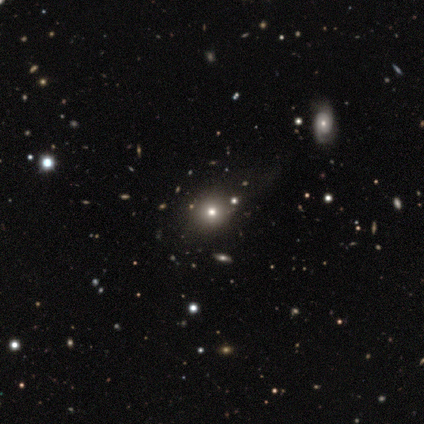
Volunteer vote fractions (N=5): Smooth or featured: smooth — 80% (star or artifact — 20%)
How rounded: round — 100%
Merging: none — 75% (minor disturbance — 25%)